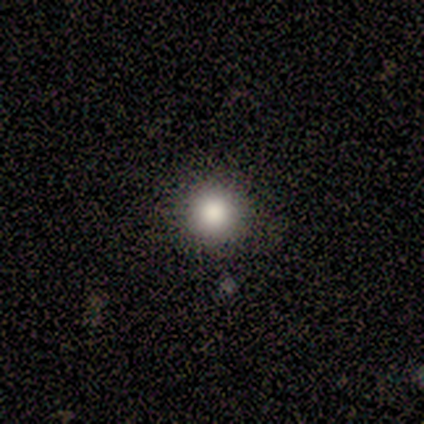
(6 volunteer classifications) Volunteers were most divided on "merging": none: 83%, minor disturbance: 17%, major disturbance: 0%, merger: 0%. More confident: smooth or featured — smooth (100%); how rounded — round (100%).